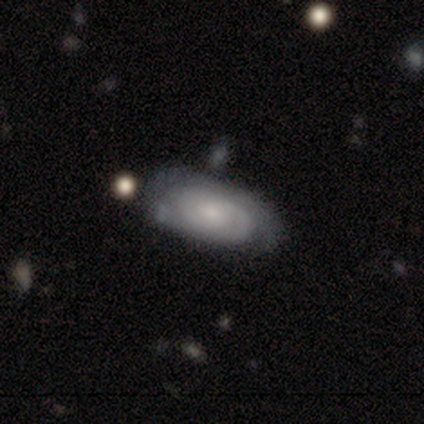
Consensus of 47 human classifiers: Smooth or featured: featured or disk — 66% (smooth — 28%)
Edge-on disk: no — 97% (yes — 3%)
Bar: no — 80% (weak — 20%)
Spiral arms: yes — 90% (no — 10%)
Spiral winding: tight — 67% (medium — 22%)
Spiral arm count: 2 — 41% (can't tell — 37%)
Bulge size: small — 57% (moderate — 37%)
Merging: none — 68% (minor disturbance — 20%)